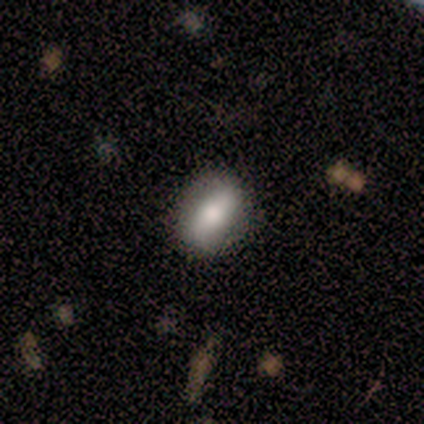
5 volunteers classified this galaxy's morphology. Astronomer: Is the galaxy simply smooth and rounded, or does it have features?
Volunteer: smooth — 60% (runner-up: featured or disk, 40%).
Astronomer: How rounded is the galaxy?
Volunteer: round — 33%, tied with in between and cigar-shaped at 33%.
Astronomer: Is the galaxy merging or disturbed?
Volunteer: none — 80%.